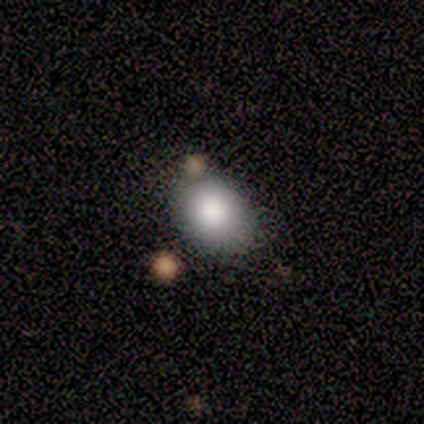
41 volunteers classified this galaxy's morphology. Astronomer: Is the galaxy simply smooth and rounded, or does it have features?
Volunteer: smooth — 93%.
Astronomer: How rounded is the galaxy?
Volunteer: in between — 53% (runner-up: round, 45%).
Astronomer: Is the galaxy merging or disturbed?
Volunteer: none — 57%.